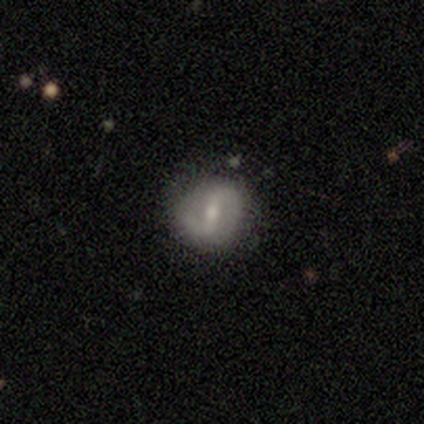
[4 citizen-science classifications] Volunteers were most divided on "spiral winding" (2-way tie): medium: 50%, loose: 50%, tight: 0%. More confident: edge-on disk — no (100%); bar — weak (100%); spiral arm count — 2 (100%); smooth or featured — featured or disk (75%); merging — none (75%); spiral arms — yes (67%); bulge size — moderate (67%).